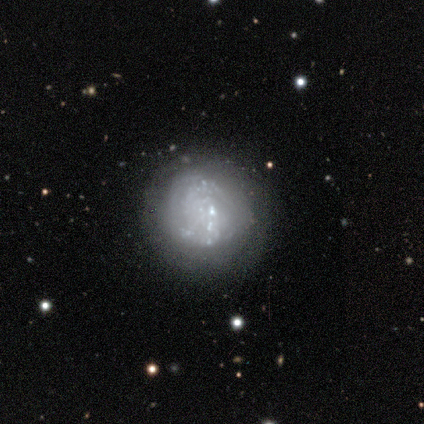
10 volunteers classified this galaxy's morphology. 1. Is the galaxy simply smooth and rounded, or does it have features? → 60% featured or disk, 20% smooth, 20% star or artifact.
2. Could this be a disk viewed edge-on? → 100% no, 0% yes.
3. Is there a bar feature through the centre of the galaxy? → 83% no, 17% strong, 0% weak.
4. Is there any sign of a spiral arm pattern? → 67% no, 33% yes.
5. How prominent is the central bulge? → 83% none, 17% small, 0% dominant, 0% large, 0% moderate.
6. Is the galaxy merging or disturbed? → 62% none, 25% minor disturbance, 12% merger, 0% major disturbance.